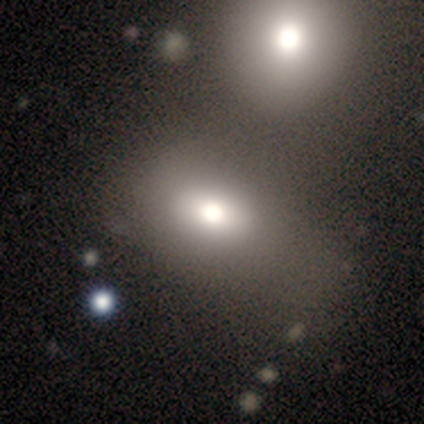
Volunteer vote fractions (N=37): smooth-or-featured: smooth: 57% | featured or disk: 22% | star or artifact: 22%
  how-rounded: in between: 86% | round: 14% | cigar-shaped: 0%
  merging: none: 34% | minor disturbance: 31% | merger: 21% | major disturbance: 14%